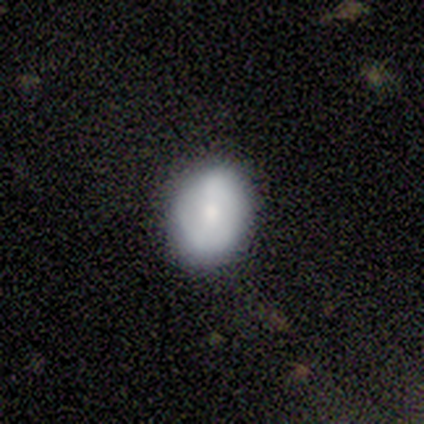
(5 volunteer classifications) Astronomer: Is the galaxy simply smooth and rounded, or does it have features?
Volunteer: featured or disk — 60% (runner-up: smooth, 40%).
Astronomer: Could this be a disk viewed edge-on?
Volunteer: no — 100%.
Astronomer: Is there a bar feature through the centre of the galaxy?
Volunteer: no — 67%.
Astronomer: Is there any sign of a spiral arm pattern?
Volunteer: no — 100%.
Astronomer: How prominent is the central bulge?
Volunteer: moderate — 67%.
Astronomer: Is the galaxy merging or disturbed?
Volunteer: none — 100%.